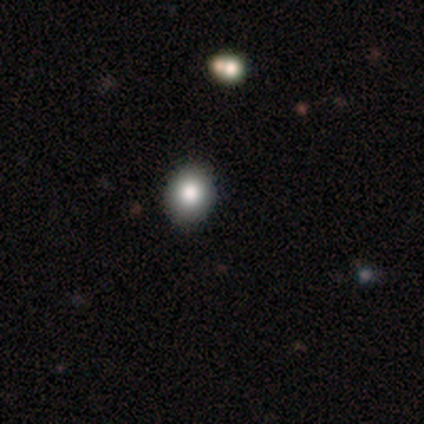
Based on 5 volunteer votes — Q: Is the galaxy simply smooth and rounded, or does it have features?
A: smooth — 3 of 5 (60%).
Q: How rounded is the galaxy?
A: round — 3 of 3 (100%).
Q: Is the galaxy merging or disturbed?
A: none — 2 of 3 (67%).